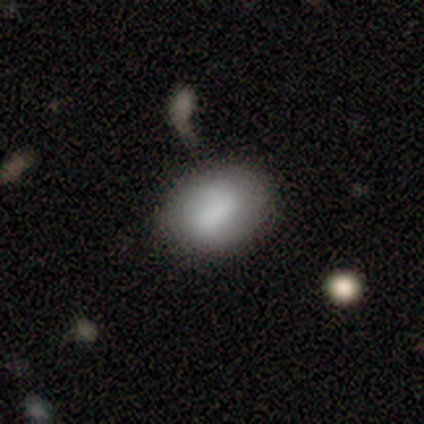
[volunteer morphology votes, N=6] A smooth galaxy with no disk features (67%) that is in between round and cigar-shaped (75%). Merging: none (80%).